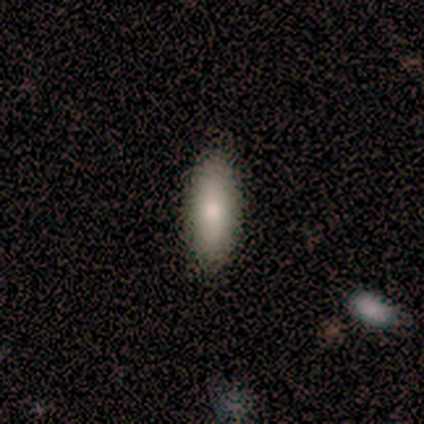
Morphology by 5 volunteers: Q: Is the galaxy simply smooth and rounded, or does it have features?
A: smooth — 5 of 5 (100%).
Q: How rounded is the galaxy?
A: in between — 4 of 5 (80%).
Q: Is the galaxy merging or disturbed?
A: none — 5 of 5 (100%).